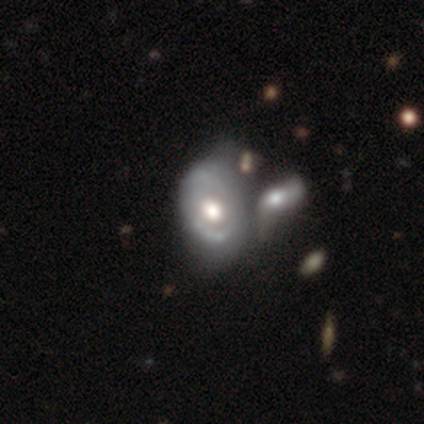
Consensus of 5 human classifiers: smooth_or_featured: featured or disk (p=1.00)
disk_edge_on: no (p=1.00)
bar: no (p=0.80) [alt: weak p=0.20]
has_spiral_arms: yes (p=0.60) [alt: no p=0.40]
spiral_winding: tight (p=0.33) [tied with: medium p=0.33, loose p=0.33]
spiral_arm_count: 2 (p=0.67) [alt: 1 p=0.33]
bulge_size: moderate (p=0.60) [alt: large p=0.40]
merging: merger (p=0.60) [alt: none p=0.20]